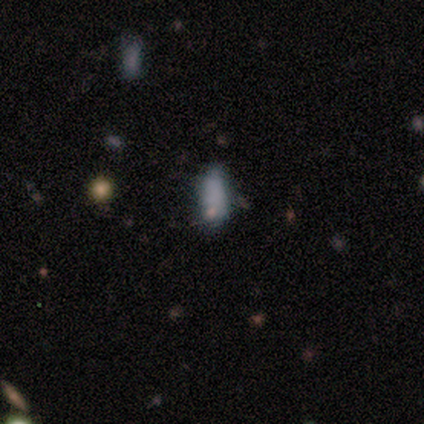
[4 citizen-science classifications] Morphology: type=smooth (100%); roundness=in between (50%, tied with cigar-shaped); merging=minor disturbance (50%).